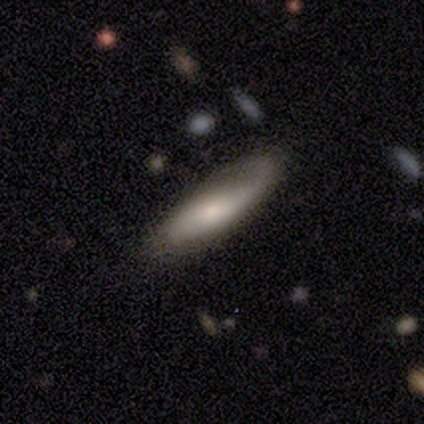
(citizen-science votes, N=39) A smooth galaxy with no disk features (62%) that is cigar-shaped (50%).

Vote fractions:
- Smooth or featured? smooth: 62% / featured or disk: 33% / star or artifact: 5%
- How rounded? cigar-shaped: 50% / in between: 46% / round: 4%
- Merging? none: 68% / major disturbance: 19% / minor disturbance: 11% / merger: 3%